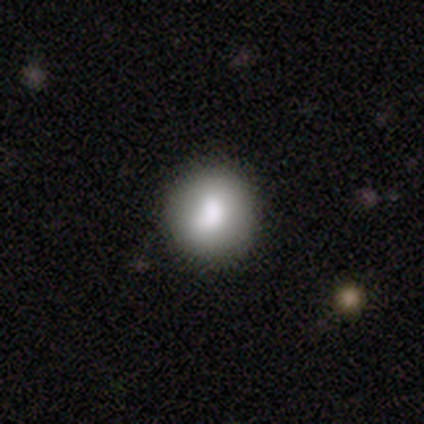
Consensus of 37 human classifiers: smooth-or-featured: smooth: 81% | featured or disk: 11% | star or artifact: 8%
  how-rounded: round: 87% | in between: 13% | cigar-shaped: 0%
  merging: none: 74% | minor disturbance: 18% | merger: 6% | major disturbance: 3%